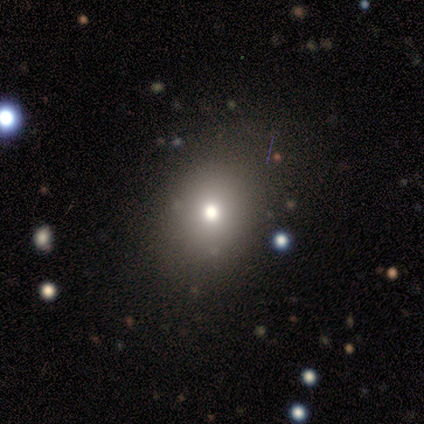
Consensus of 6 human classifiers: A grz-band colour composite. It shows a smooth galaxy with no disk features (67%) that is round (75%). Merging: none (80%).